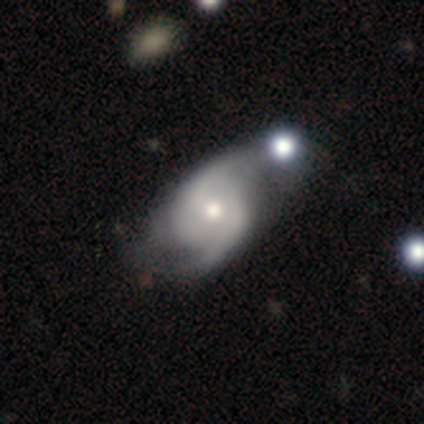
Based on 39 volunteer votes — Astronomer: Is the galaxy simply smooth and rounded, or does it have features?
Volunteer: featured or disk — 85%.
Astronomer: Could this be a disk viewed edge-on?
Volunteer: no — 100%.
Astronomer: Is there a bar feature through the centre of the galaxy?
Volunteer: no — 73%.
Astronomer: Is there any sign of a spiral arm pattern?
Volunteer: yes — 88%.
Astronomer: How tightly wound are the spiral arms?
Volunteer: medium — 55%.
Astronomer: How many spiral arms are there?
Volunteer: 2 — 83%.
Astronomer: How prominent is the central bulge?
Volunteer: moderate — 67%.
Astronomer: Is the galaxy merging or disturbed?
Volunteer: none — 24% (runner-up: minor disturbance, 16%).